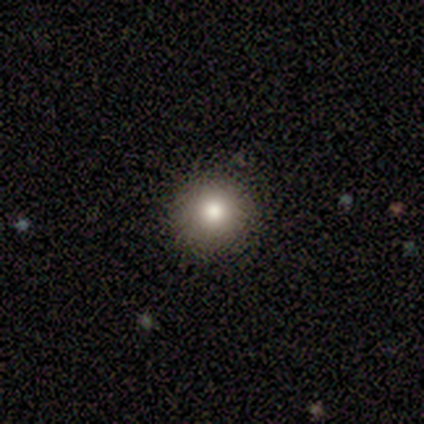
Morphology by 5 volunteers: A star or artifact, not a galaxy (60%).

Vote fractions:
- Smooth or featured? star or artifact: 60% / smooth: 40% / featured or disk: 0%